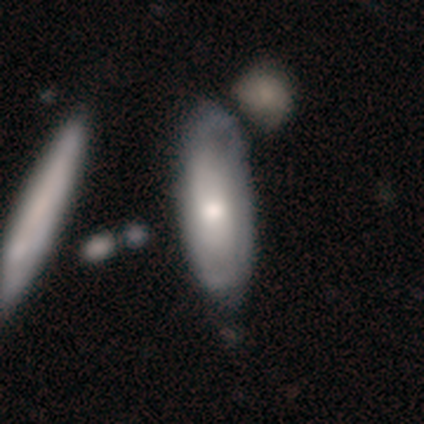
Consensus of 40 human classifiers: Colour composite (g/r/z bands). It shows a featured or disk galaxy (60%) with no bar (82%), no spiral arms (65%) and a moderate central bulge (76%). Merging: none (34%).